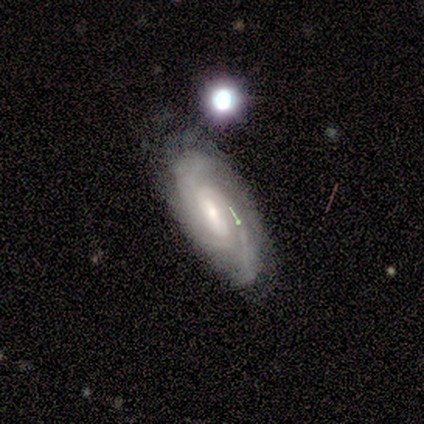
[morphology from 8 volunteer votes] featured or disk 88%, smooth 12%, star or artifact 0%. Down the decision tree: edge-on disk — no (86%); bar — weak (83%); spiral arms — yes (100%); spiral arm count — 3 (33%, tied with 4); spiral winding — tight (83%); bulge size — small (67%); merging — none (75%).